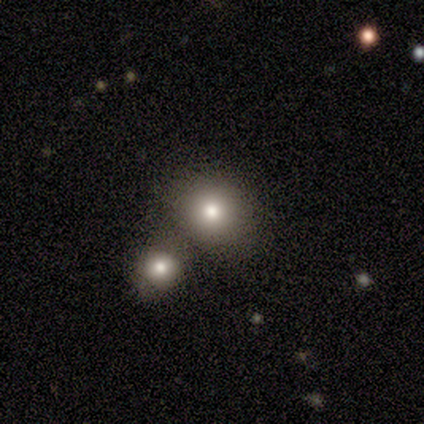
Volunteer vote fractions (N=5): Volunteers were most divided on "merging": none: 75%, merger: 25%, minor disturbance: 0%, major disturbance: 0%. More confident: how rounded — round (100%); smooth or featured — smooth (80%).